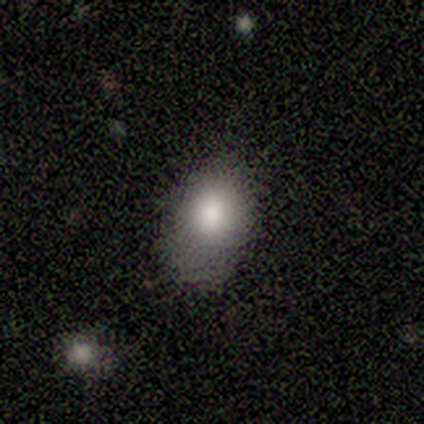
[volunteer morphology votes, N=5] Smooth or featured? 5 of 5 (100%) said smooth. How rounded? 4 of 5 (80%) said in between. Merging? 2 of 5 (40%) said none.